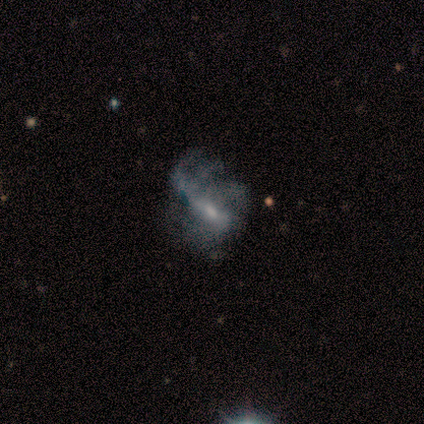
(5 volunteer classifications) Q: Smooth or featured?
A: featured or disk (80%); runner-up: smooth (20%)
Q: Edge-on disk?
A: no (100%)
Q: Bar?
A: no (50%); runner-up: strong (25%)
Q: Spiral arms?
A: yes (50%); tied with: no (50%)
Q: Spiral winding?
A: loose (100%)
Q: Spiral arm count?
A: can't tell (100%)
Q: Bulge size?
A: small (50%); runner-up: moderate (25%)
Q: Merging?
A: minor disturbance (40%); tied with: major disturbance (40%)